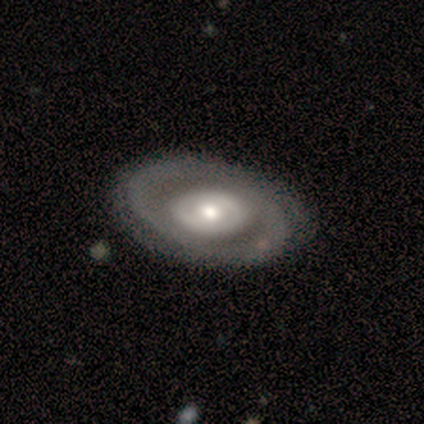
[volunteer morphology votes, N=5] smooth_or_featured: featured or disk (p=0.80) [alt: smooth p=0.20]
disk_edge_on: no (p=1.00)
bar: no (p=0.75) [alt: strong p=0.25]
has_spiral_arms: yes (p=0.75) [alt: no p=0.25]
spiral_winding: tight (p=0.33) [tied with: medium p=0.33, loose p=0.33]
spiral_arm_count: 2 (p=1.00)
bulge_size: moderate (p=0.50) [tied with: small p=0.50]
merging: none (p=1.00)